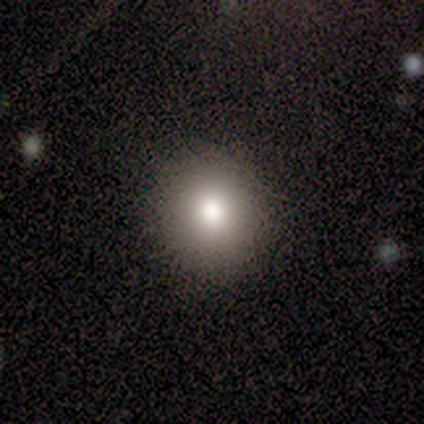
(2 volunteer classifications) A smooth galaxy with no disk features (100%) that is round (100%). Merging: none (100%).